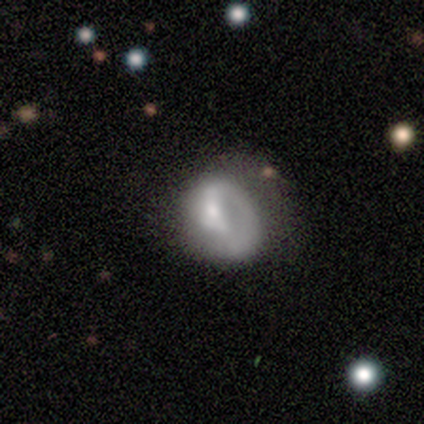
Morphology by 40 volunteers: Smooth or featured?
  - featured or disk: 60% *
  - smooth: 38%
  - star or artifact: 2%
Edge-on disk?
  - no: 96% *
  - yes: 4%
Bar?
  - no: 48% *
  - weak: 39%
  - strong: 13%
Spiral arms?
  - yes: 57% *
  - no: 43%
Spiral winding?
  - tight: 38% * (tied)
  - medium: 38% * (tied)
  - loose: 23%
Spiral arm count?
  - 1: 85% *
  - 2: 15%
  - 3: 0%
  - 4: 0%
  - more than 4: 0%
  - can't tell: 0%
Bulge size?
  - small: 52% *
  - moderate: 22%
  - large: 13%
  - none: 13%
  - dominant: 0%
Merging?
  - major disturbance: 28% *
  - minor disturbance: 23%
  - none: 15%
  - merger: 3%